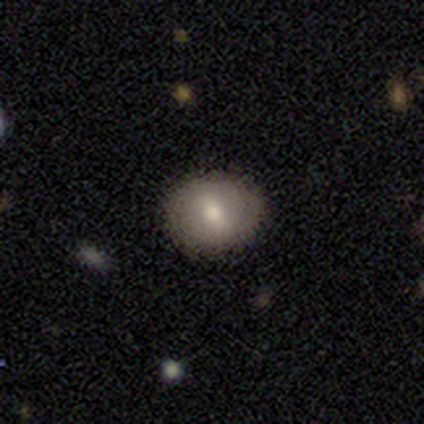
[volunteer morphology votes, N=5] This is clearly a smooth galaxy (80%). How rounded: possibly round (50%, tied with in between). Merging: clearly none (80%).